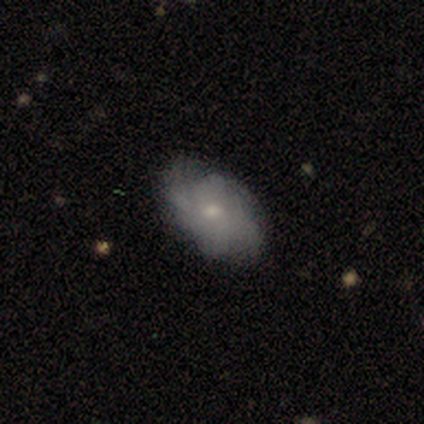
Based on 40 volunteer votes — smooth-or-featured: featured or disk: 55% | smooth: 38% | star or artifact: 8%
  disk-edge-on: no: 95% | yes: 5%
    bar: no: 81% | weak: 19% | strong: 0%
    has-spiral-arms: yes: 67% | no: 33%
      spiral-winding: tight: 36% (tied) | medium: 36% (tied) | loose: 29%
      spiral-arm-count: can't tell: 43% | 3: 29% | 4: 14% | more than 4: 14% | 1: 0% | 2: 0%
    bulge-size: moderate: 52% | small: 43% | large: 5% | dominant: 0% | none: 0%
  merging: none: 70% | minor disturbance: 22% | major disturbance: 5% | merger: 3%